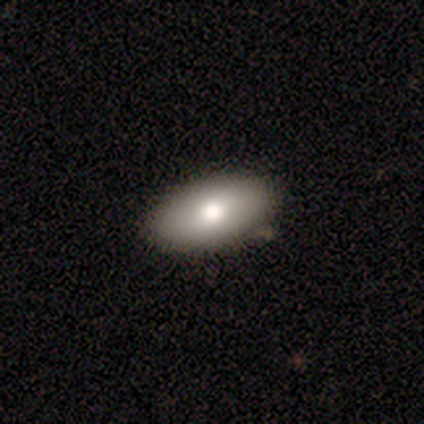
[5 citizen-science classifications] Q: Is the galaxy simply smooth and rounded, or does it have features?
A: featured or disk — 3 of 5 (60%).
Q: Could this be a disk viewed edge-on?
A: no — 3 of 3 (100%).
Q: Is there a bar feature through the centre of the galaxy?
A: no — 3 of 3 (100%).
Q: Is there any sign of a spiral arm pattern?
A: no — 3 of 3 (100%).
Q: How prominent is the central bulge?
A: moderate — 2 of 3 (67%).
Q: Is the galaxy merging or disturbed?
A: none — 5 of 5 (100%).